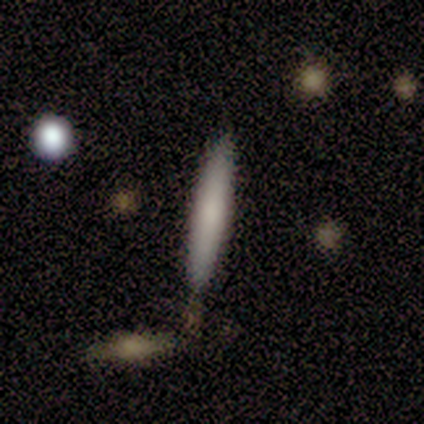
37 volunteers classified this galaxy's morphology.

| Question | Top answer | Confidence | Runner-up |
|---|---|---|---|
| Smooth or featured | smooth | 73% | featured or disk (27%) |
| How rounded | cigar-shaped | 100% | — |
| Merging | none | 89% | merger (8%) |